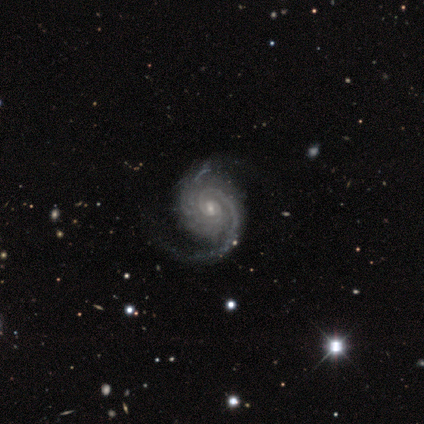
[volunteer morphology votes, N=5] Smooth or featured: featured or disk — 80% (star or artifact — 20%)
Edge-on disk: no — 75% (yes — 25%)
Bar: no — 67% (strong — 33%)
Spiral arms: yes — 100%
Spiral winding: loose — 67% (medium — 33%)
Spiral arm count: 2 — 100%
Bulge size: small — 67% (none — 33%)
Merging: none — 75% (major disturbance — 25%)